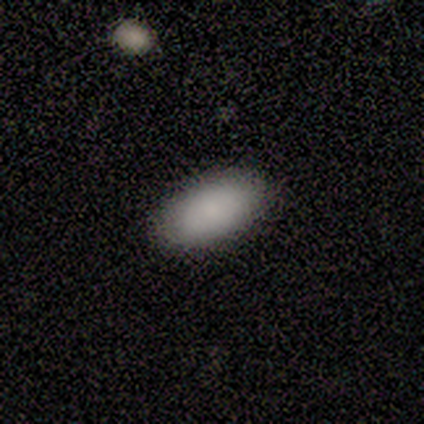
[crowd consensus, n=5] Overall: smooth (100%). How rounded: in between (100%). Merging: none (100%).